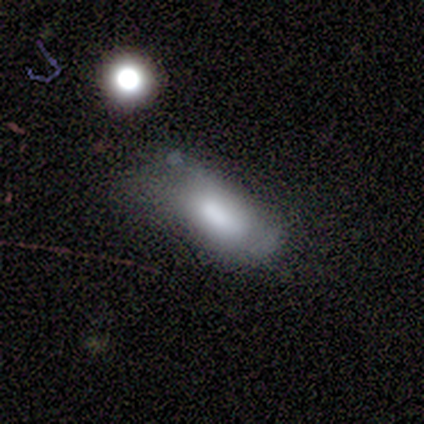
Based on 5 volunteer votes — smooth_or_featured: smooth (p=1.00)
how_rounded: in between (p=0.80) [alt: cigar-shaped p=0.20]
merging: major disturbance (p=0.80) [alt: minor disturbance p=0.20]